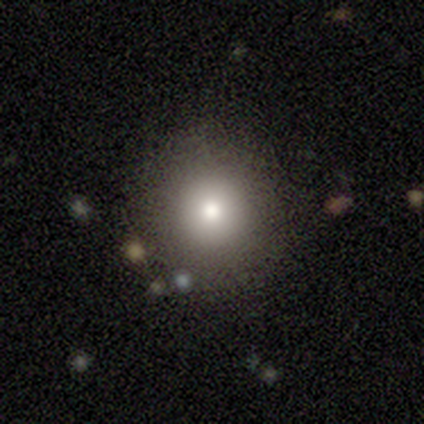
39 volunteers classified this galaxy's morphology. Q: Smooth or featured?
A: smooth (69%); runner-up: star or artifact (18%)
Q: How rounded?
A: round (96%); runner-up: in between (4%)
Q: Merging?
A: none (94%); runner-up: minor disturbance (3%)